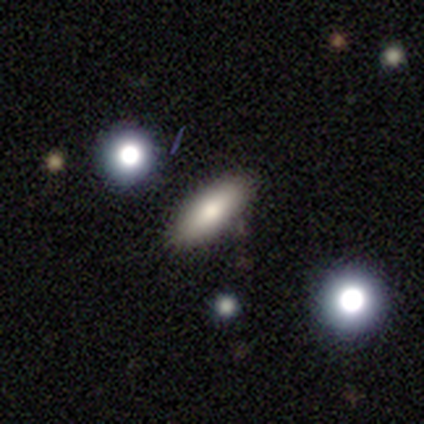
Smooth or featured?
  - smooth: 76% *
  - featured or disk: 21%
  - star or artifact: 3%
How rounded?
  - in between: 50% *
  - cigar-shaped: 42%
  - round: 8%
Merging?
  - none: 88% *
  - minor disturbance: 6%
  - major disturbance: 3%
  - merger: 3%